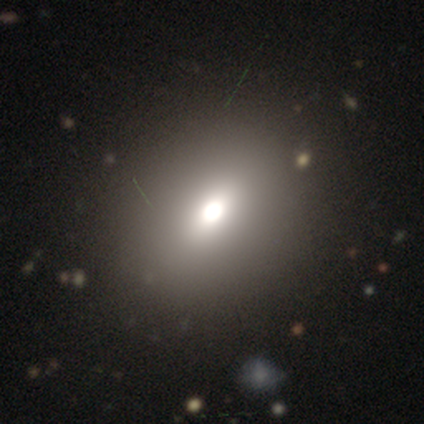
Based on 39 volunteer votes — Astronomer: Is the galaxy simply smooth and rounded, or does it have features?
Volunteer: smooth — 64%.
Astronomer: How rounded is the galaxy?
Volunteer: in between — 56% (runner-up: round, 36%).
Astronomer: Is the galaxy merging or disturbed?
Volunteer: none — 90%.